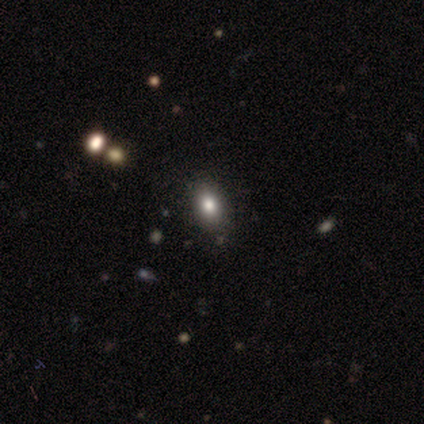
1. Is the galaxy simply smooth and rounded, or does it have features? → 100% smooth, 0% featured or disk, 0% star or artifact.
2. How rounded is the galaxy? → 60% in between, 40% round, 0% cigar-shaped.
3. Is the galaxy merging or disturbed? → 100% none, 0% minor disturbance, 0% major disturbance, 0% merger.